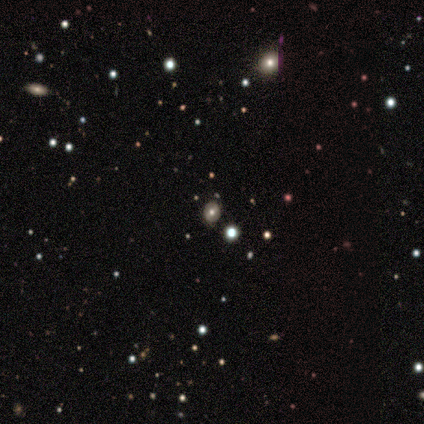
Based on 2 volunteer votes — Morphology: type=smooth (50%, tied with star or artifact); roundness=round (100%); merging=none (100%).